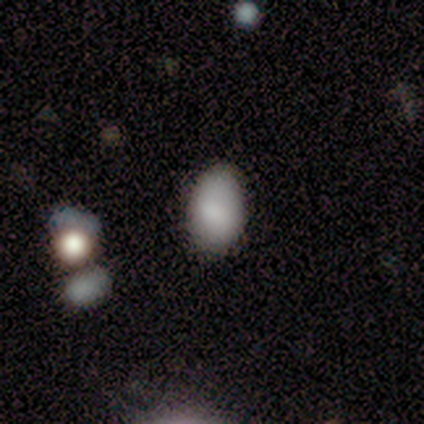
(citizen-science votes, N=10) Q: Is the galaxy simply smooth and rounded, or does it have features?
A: smooth — 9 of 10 (90%).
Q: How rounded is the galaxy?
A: in between — 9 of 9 (100%).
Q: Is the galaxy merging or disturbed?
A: none — 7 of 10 (70%).